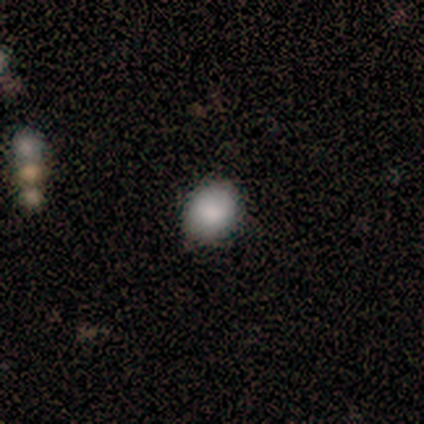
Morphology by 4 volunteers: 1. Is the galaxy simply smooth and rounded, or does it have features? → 100% smooth, 0% featured or disk, 0% star or artifact.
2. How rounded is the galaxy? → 75% in between, 25% round, 0% cigar-shaped.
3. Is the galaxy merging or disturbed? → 75% none, 25% minor disturbance, 0% major disturbance, 0% merger.